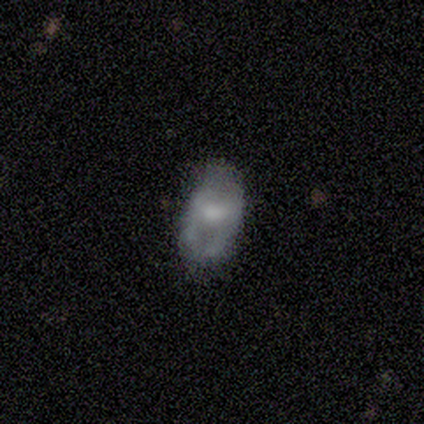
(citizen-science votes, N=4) Smooth or featured?
  - featured or disk: 75% *
  - smooth: 25%
  - star or artifact: 0%
Edge-on disk?
  - no: 100% *
  - yes: 0%
Bar?
  - no: 67% *
  - weak: 33%
  - strong: 0%
Spiral arms?
  - no: 100% *
  - yes: 0%
Bulge size?
  - large: 33% * (tied)
  - moderate: 33% * (tied)
  - small: 33% * (tied)
  - dominant: 0%
  - none: 0%
Merging?
  - none: 50% *
  - minor disturbance: 25%
  - major disturbance: 25%
  - merger: 0%